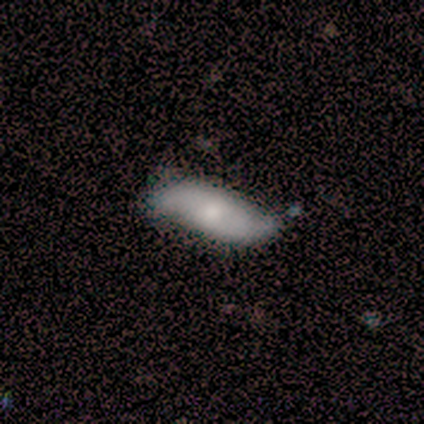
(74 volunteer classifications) smooth_or_featured: featured or disk (p=0.49) [alt: smooth p=0.42]
disk_edge_on: no (p=0.92) [alt: yes p=0.08]
bar: no (p=0.73) [alt: weak p=0.24]
has_spiral_arms: yes (p=0.88) [alt: no p=0.12]
spiral_winding: loose (p=0.72) [alt: medium p=0.21]
spiral_arm_count: 2 (p=0.93) [alt: 3 p=0.03]
bulge_size: moderate (p=0.64) [alt: small p=0.18]
merging: none (p=0.61) [alt: minor disturbance p=0.27]